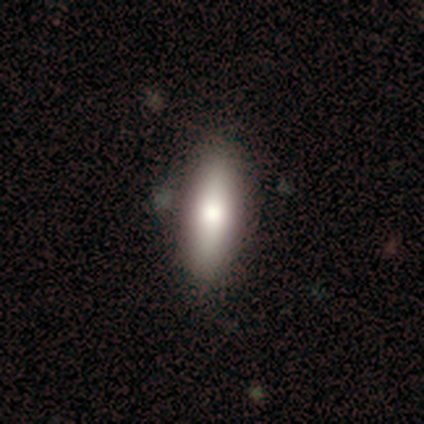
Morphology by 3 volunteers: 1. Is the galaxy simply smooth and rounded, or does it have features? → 67% featured or disk, 33% smooth, 0% star or artifact.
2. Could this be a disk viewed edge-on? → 50% yes (tied), 50% no (tied).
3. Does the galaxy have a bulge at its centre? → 100% none, 0% boxy, 0% rounded.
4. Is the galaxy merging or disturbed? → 67% none, 33% merger, 0% minor disturbance, 0% major disturbance.